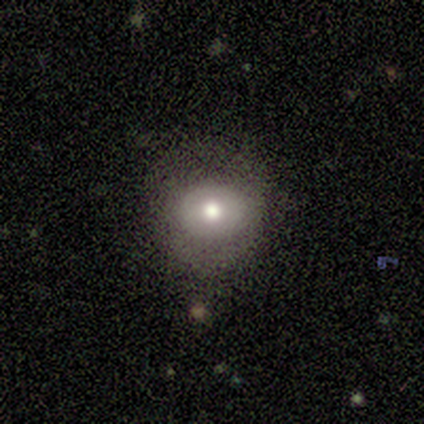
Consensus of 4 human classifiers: A smooth galaxy with no disk features (75%) that is in between round and cigar-shaped (67%). Merging: none (100%).